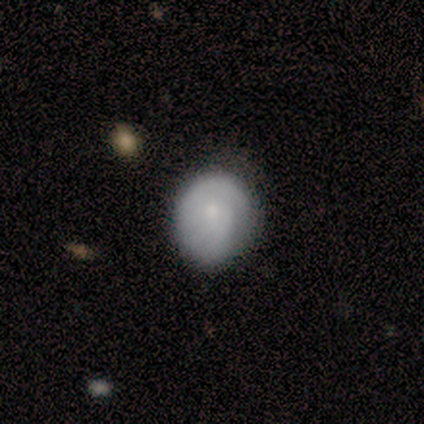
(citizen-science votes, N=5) Overall: smooth (80%). How rounded: round (75%). Merging: none (100%).